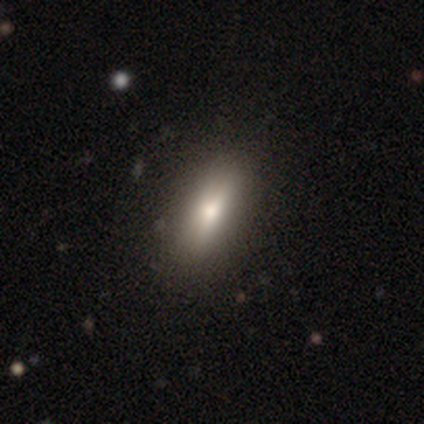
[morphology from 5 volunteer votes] smooth_or_featured: smooth (p=0.60) [alt: featured or disk p=0.40]
how_rounded: in between (p=0.67) [alt: round p=0.33]
merging: none (p=1.00)